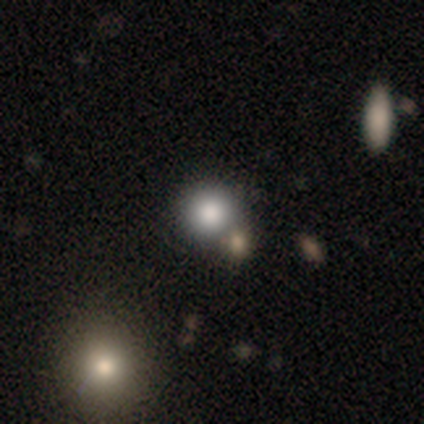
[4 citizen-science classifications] Smooth or featured?
  - smooth: 100% *
  - featured or disk: 0%
  - star or artifact: 0%
How rounded?
  - round: 75% *
  - in between: 25%
  - cigar-shaped: 0%
Merging?
  - merger: 50% *
  - none: 25%
  - minor disturbance: 25%
  - major disturbance: 0%